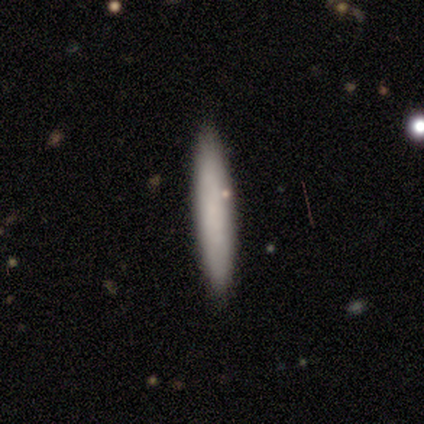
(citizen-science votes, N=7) This is likely a smooth galaxy (71%). How rounded: likely cigar-shaped (60%). Merging: clearly none (100%).